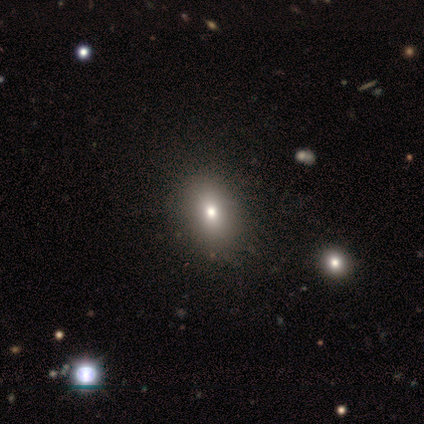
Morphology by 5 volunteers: Overall: smooth (80%). How rounded: in between (75%). Merging: none (40%, tied with minor disturbance).